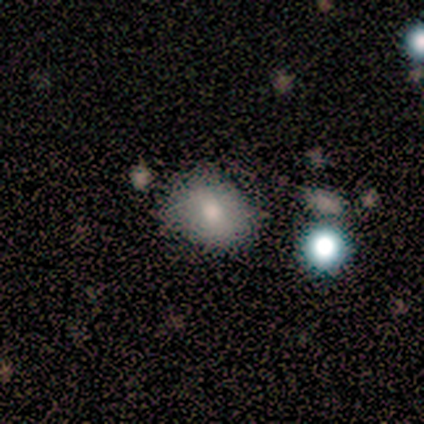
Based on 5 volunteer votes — A smooth galaxy with no disk features (60%) that is in between round and cigar-shaped (100%). Merging: none (40%, tied with minor disturbance).